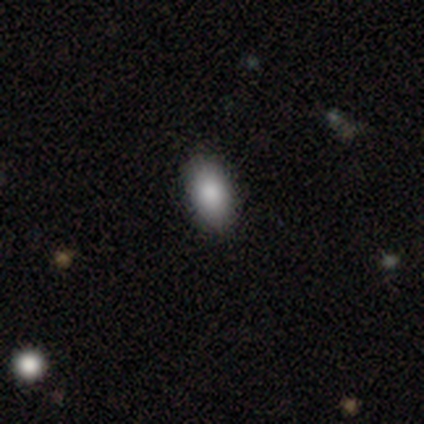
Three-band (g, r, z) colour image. It shows a smooth galaxy with no disk features (75%) that is in between round and cigar-shaped (67%). Merging: none (100%).